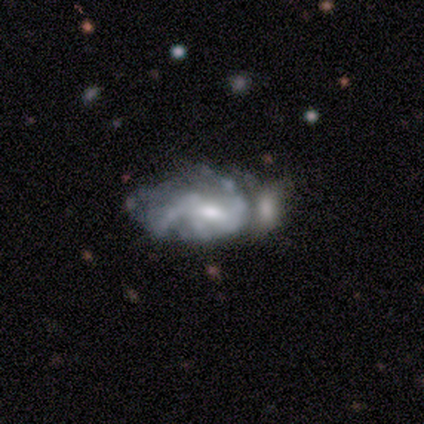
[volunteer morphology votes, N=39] A featured or disk galaxy (79%) with a weak bar (58%), 2 (50%) medium (56%) spiral arms (52%) and a moderate central bulge (55%).

Vote fractions:
- Smooth or featured? featured or disk: 79% / smooth: 13% / star or artifact: 8%
- Edge-on disk? no: 100% / yes: 0%
- Bar? weak: 58% / no: 35% / strong: 6%
- Spiral arms? yes: 52% / no: 48%
- Spiral winding? medium: 56% / loose: 31% / tight: 12%
- Spiral arm count? 2: 50% / can't tell: 38% / 3: 6% / 4: 6% / 1: 0% / more than 4: 0%
- Bulge size? moderate: 55% / small: 26% / none: 13% / large: 6% / dominant: 0%
- Merging? merger: 31% / minor disturbance: 28% / major disturbance: 22% / none: 19%